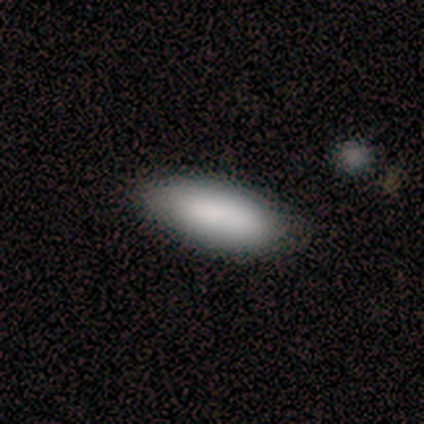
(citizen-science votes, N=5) Morphology: type=smooth (100%); roundness=in between (100%); merging=none (100%).